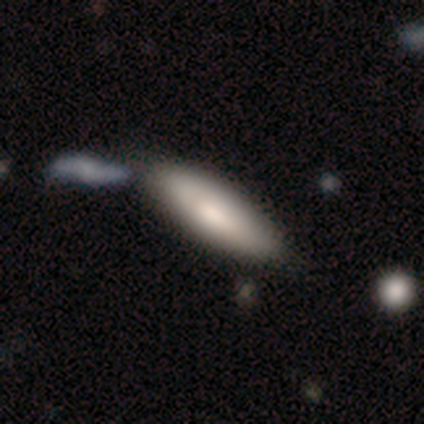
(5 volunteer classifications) featured or disk 60%, smooth 40%, star or artifact 0%. Down the decision tree: edge-on disk — no (67%); bar — no (100%); spiral arms — no (100%); bulge size — moderate (50%, tied with none); merging — none (40%).